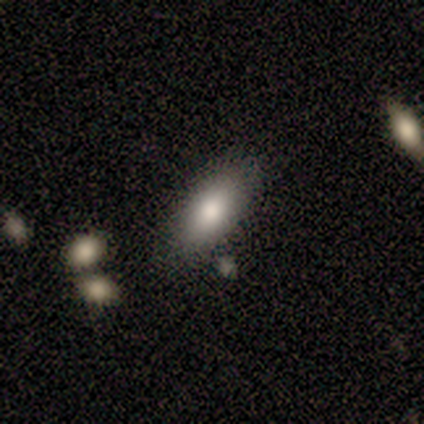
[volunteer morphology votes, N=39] Volunteers were most divided on "smooth or featured": smooth: 74%, featured or disk: 21%, star or artifact: 5%. More confident: how rounded — in between (76%); merging — none (73%).